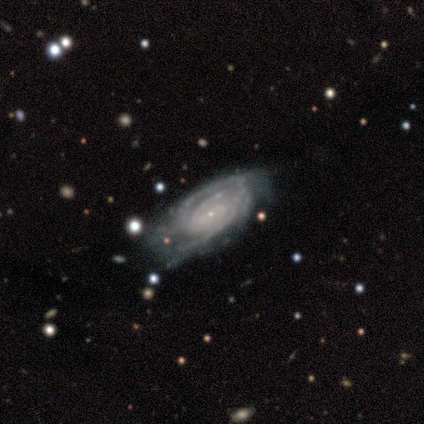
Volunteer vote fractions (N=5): Smooth or featured? featured or disk (100%)
Edge-on disk? no (100%)
Bar? no (80%)
Spiral arms? yes (100%)
Spiral winding? tight (60%)
Spiral arm count? 3 (40%, tied with can't tell)
Bulge size? small (80%)
Merging? minor disturbance (40%, tied with major disturbance)